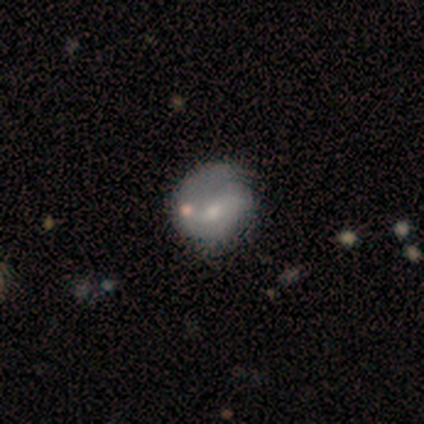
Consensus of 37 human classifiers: Volunteers were most divided on "spiral arms": no: 57%, yes: 43%. More confident: edge-on disk — no (84%); smooth or featured — featured or disk (68%); bar — no (62%); bulge size — small (62%); merging — none (50%).